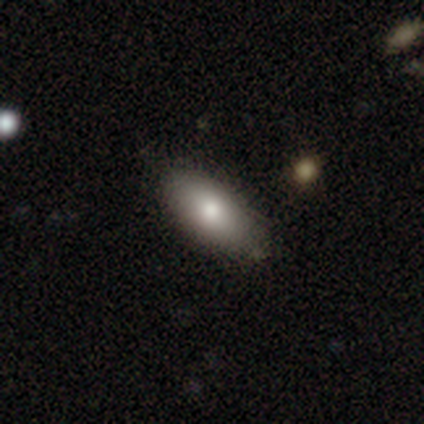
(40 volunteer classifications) Q: Smooth or featured?
A: smooth (80%); runner-up: featured or disk (20%)
Q: How rounded?
A: in between (97%); runner-up: round (3%)
Q: Merging?
A: none (72%); runner-up: minor disturbance (12%)